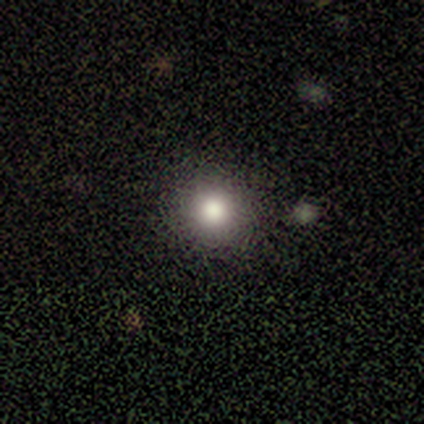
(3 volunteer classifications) This appears to be a smooth galaxy with no disk features (67%) that is round (100%). Merging: none (100%).